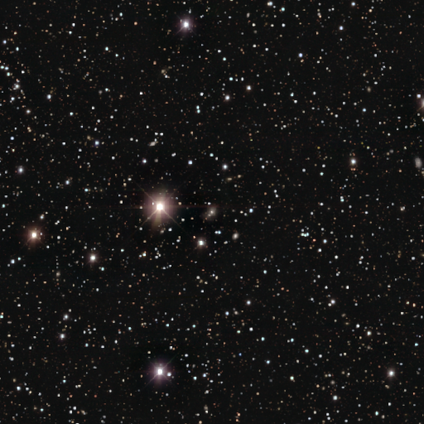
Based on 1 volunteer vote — Consensus on every question: smooth or featured — star or artifact (100%).